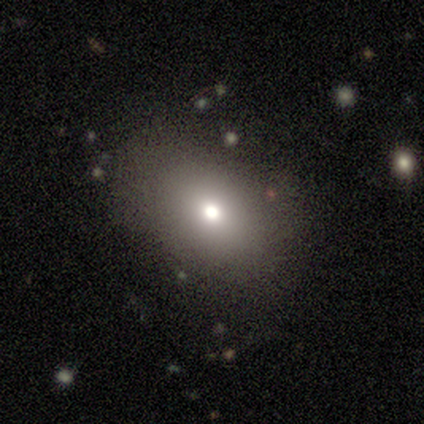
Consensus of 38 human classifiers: A smooth galaxy with no disk features (68%) that is in between round and cigar-shaped (85%).

Vote fractions:
- Smooth or featured? smooth: 68% / featured or disk: 18% / star or artifact: 13%
- How rounded? in between: 85% / round: 15% / cigar-shaped: 0%
- Merging? none: 76% / minor disturbance: 15% / major disturbance: 9% / merger: 0%